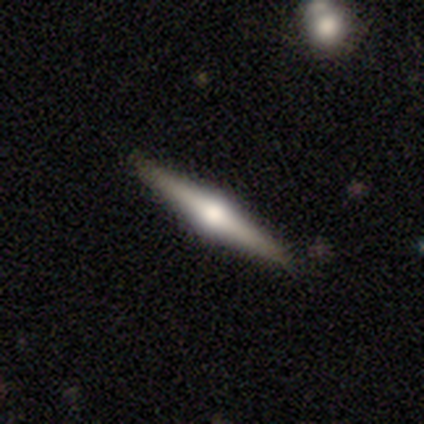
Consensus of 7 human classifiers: Morphology: type=featured or disk (86%); edge-on=yes (100%); edge-on bulge=rounded (100%); merging=none (100%).